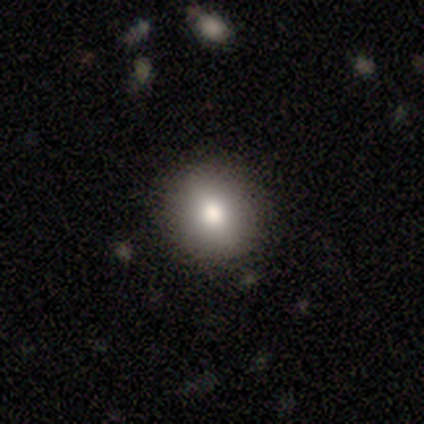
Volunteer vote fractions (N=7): Volunteers were most divided on "merging": none: 71%, minor disturbance: 29%, major disturbance: 0%, merger: 0%. More confident: smooth or featured — smooth (86%); how rounded — round (83%).